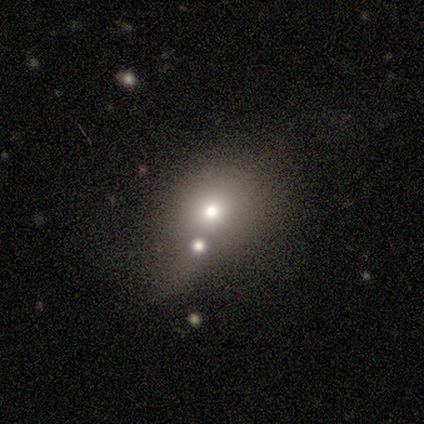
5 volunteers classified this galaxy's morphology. Smooth or featured? smooth (60%)
How rounded? round (67%)
Merging? none (50%)